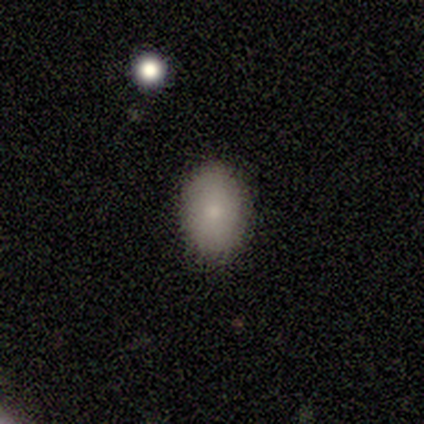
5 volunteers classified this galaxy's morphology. Smooth or featured?
  - smooth: 80% *
  - featured or disk: 20%
  - star or artifact: 0%
How rounded?
  - in between: 75% *
  - round: 25%
  - cigar-shaped: 0%
Merging?
  - none: 100% *
  - minor disturbance: 0%
  - major disturbance: 0%
  - merger: 0%